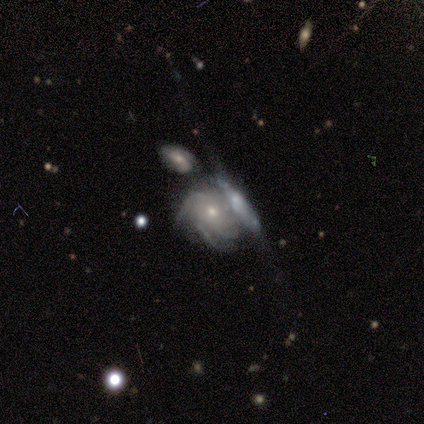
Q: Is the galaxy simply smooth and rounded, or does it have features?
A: featured or disk — 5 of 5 (100%).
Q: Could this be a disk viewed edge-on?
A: no — 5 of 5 (100%).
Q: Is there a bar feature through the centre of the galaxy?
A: no — 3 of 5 (60%).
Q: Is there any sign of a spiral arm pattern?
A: yes — 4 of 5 (80%).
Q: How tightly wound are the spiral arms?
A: tight — 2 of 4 (50%, tied with medium).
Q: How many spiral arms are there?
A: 4 — 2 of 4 (50%).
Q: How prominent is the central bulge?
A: small — 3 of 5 (60%).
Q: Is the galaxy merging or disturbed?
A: merger — 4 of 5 (80%).